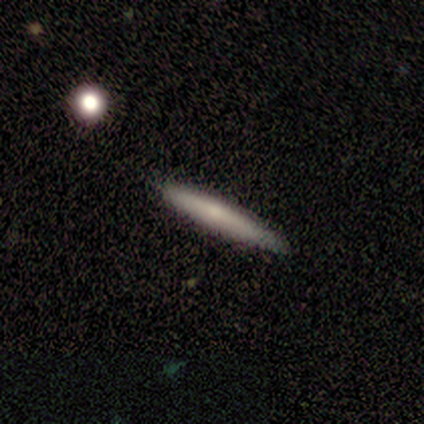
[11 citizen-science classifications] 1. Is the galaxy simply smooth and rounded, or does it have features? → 64% smooth, 36% featured or disk, 0% star or artifact.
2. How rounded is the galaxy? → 100% cigar-shaped, 0% round, 0% in between.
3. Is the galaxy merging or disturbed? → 91% none, 9% minor disturbance, 0% major disturbance, 0% merger.